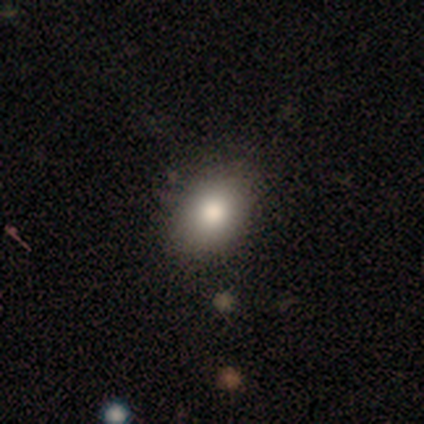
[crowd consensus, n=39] smooth_or_featured: smooth (p=0.74) [alt: featured or disk p=0.15]
how_rounded: in between (p=0.83) [alt: round p=0.17]
merging: none (p=0.94) [alt: minor disturbance p=0.06]